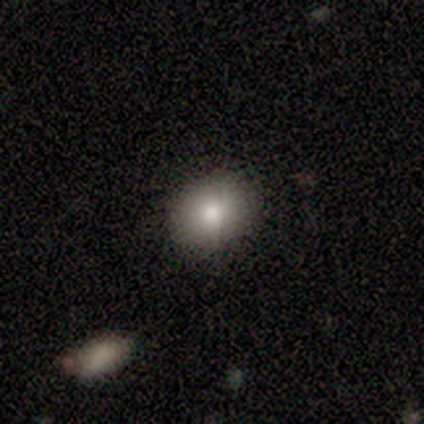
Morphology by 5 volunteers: Volunteers were most divided on "how rounded": in between: 60%, round: 40%, cigar-shaped: 0%. More confident: smooth or featured — smooth (100%); merging — none (80%).